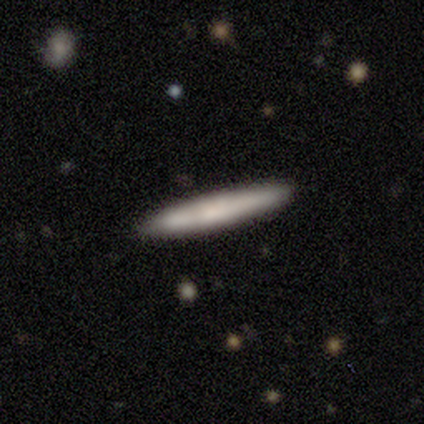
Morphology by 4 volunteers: Overall: smooth (50%, tied with featured or disk). How rounded: cigar-shaped (100%). Merging: none (75%).